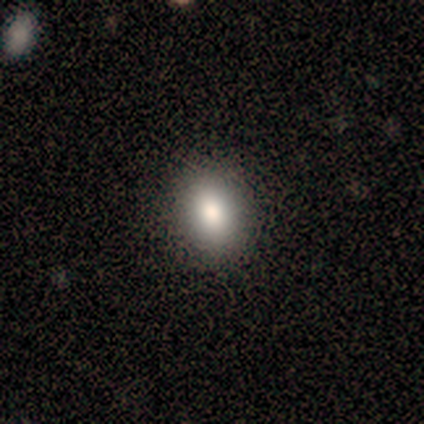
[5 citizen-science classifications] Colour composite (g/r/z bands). It shows a smooth galaxy with no disk features (80%) that is in between round and cigar-shaped (50%). Merging: none (100%).